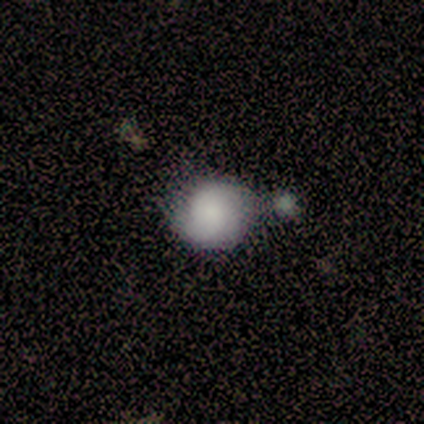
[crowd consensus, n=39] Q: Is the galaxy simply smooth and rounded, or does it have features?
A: smooth — 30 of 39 (77%).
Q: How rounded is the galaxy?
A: round — 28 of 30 (93%).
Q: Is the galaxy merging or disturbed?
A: none — 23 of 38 (61%).